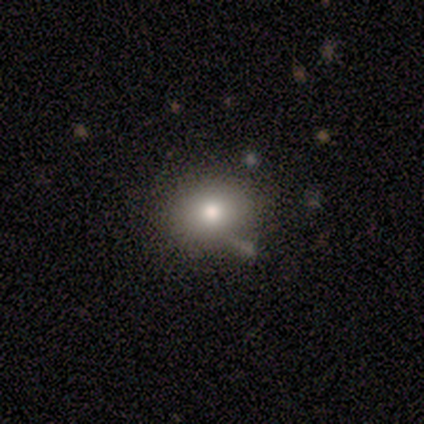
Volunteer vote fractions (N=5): A smooth galaxy with no disk features (100%) that is round (60%). Merging: none (80%).